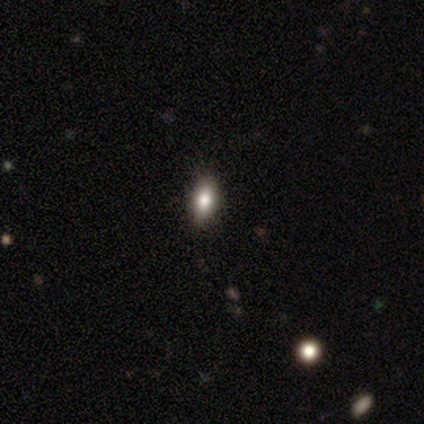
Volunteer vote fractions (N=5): Volunteers were most divided on "how rounded": in between: 60%, cigar-shaped: 40%, round: 0%. More confident: smooth or featured — smooth (100%); merging — none (80%).